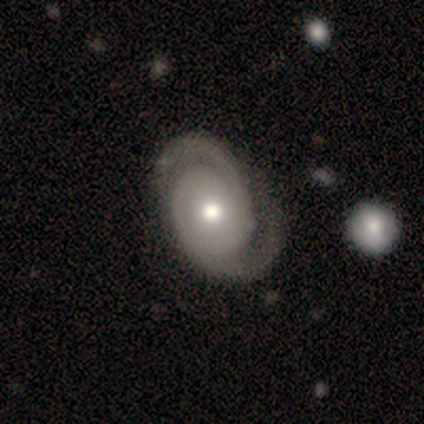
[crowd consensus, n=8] This appears to be a featured or disk galaxy (100%) with no bar (75%), 2 (100%) medium (50%) spiral arms (100%) and a moderate central bulge (38%, tied with small). Merging: none (88%).